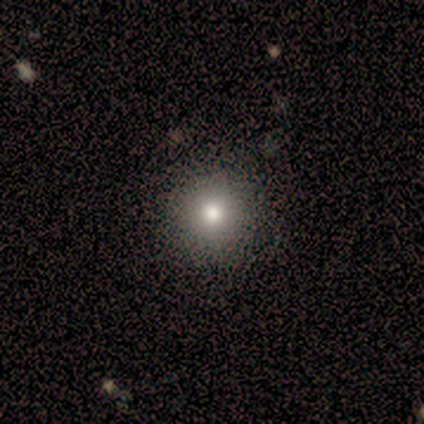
Smooth or featured?
  - smooth: 75% *
  - featured or disk: 25%
  - star or artifact: 0%
How rounded?
  - round: 100% *
  - in between: 0%
  - cigar-shaped: 0%
Merging?
  - none: 100% *
  - minor disturbance: 0%
  - major disturbance: 0%
  - merger: 0%